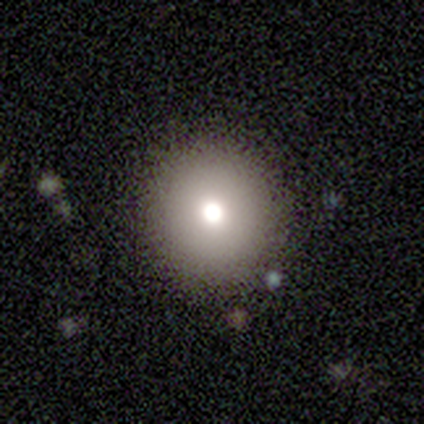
This is marginally a smooth galaxy (40%, tied with featured or disk). How rounded: clearly round (100%). Merging: likely none (75%).